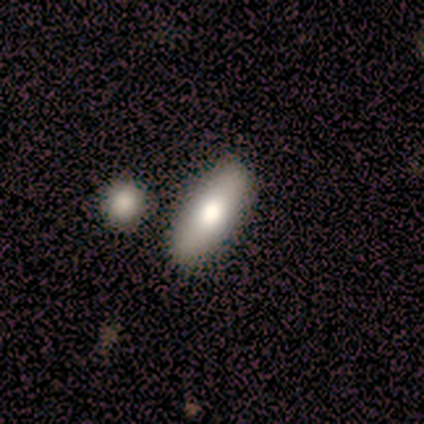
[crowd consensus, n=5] smooth_or_featured: smooth (p=1.00)
how_rounded: in between (p=0.60) [alt: cigar-shaped p=0.40]
merging: none (p=0.80) [alt: minor disturbance p=0.20]